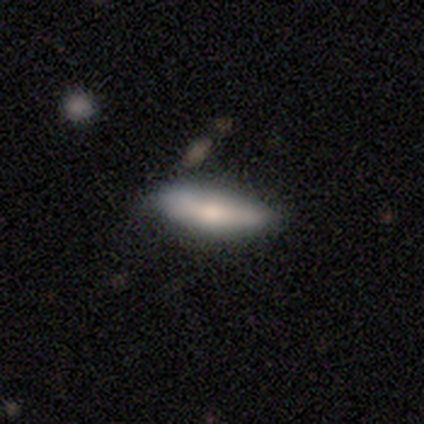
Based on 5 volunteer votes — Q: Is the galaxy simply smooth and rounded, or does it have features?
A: smooth — 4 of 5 (80%).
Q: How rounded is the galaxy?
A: cigar-shaped — 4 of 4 (100%).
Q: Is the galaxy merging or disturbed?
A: minor disturbance — 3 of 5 (60%).